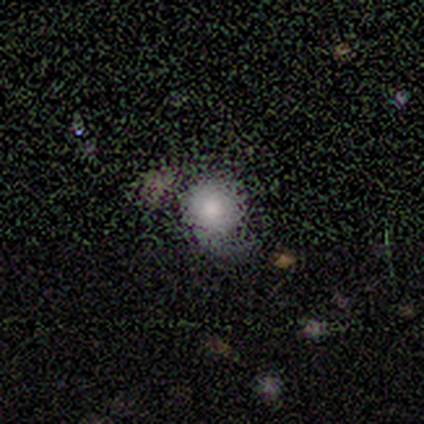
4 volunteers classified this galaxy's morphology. A smooth galaxy with no disk features (75%) that is round (100%). Merging: minor disturbance (50%).